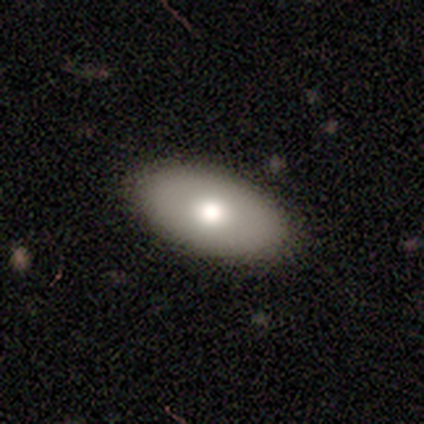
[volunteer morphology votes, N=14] A smooth galaxy with no disk features (57%) that is in between round and cigar-shaped (100%). Merging: none (100%).